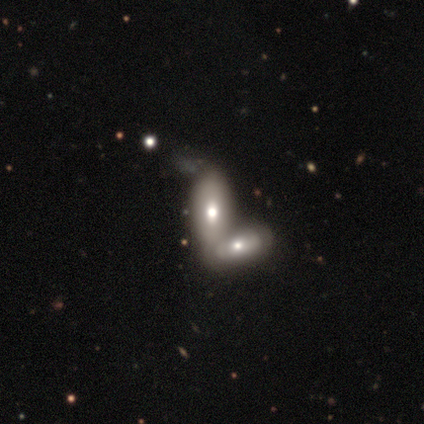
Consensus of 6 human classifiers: smooth 50% (tied), featured or disk 50% (tied), star or artifact 0%. Down the decision tree: how rounded — in between (67%); merging — merger (67%).